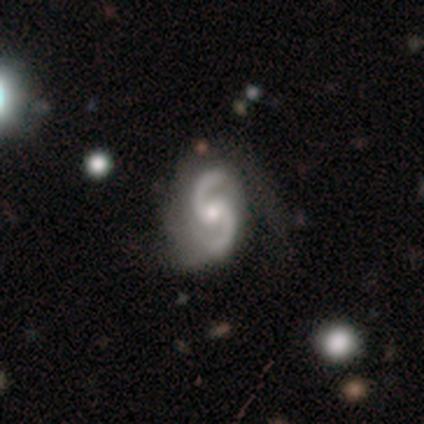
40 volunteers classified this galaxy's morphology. Overall: featured or disk (90%). Edge-on disk: no (100%). Bar: no (58%; weak 28%). Spiral arms: yes (97%). Spiral arm count: 2 (97%). Spiral winding: medium (60%; loose 31%). Bulge size: moderate (53%; small 44%). Merging: none (56%; minor disturbance 36%).